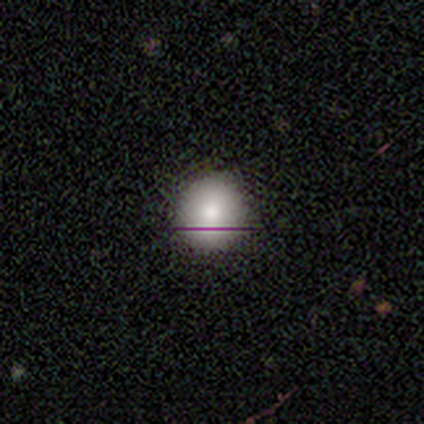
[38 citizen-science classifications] Volunteers were most divided on "smooth or featured": smooth: 66%, star or artifact: 26%, featured or disk: 8%. More confident: merging — none (96%); how rounded — round (96%).